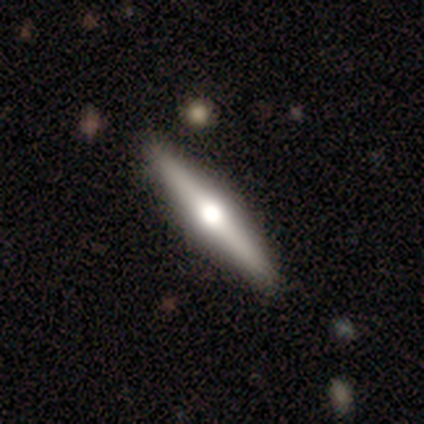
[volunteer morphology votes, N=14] Smooth or featured? featured or disk (50%)
Edge-on disk? yes (100%)
Edge-on bulge? rounded (100%)
Merging? none (89%)